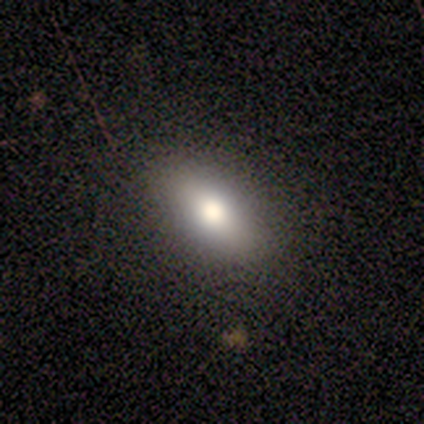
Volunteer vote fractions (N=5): Smooth or featured?
  - smooth: 60% *
  - star or artifact: 40%
  - featured or disk: 0%
How rounded?
  - in between: 100% *
  - round: 0%
  - cigar-shaped: 0%
Merging?
  - none: 100% *
  - minor disturbance: 0%
  - major disturbance: 0%
  - merger: 0%